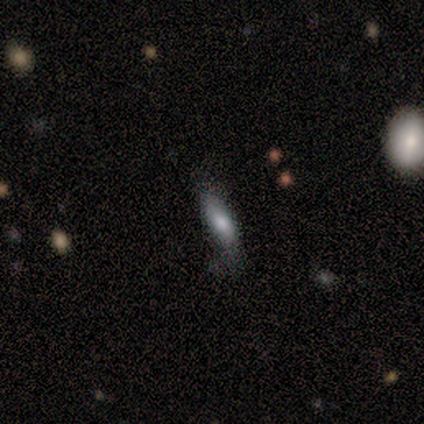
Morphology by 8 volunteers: Smooth or featured? 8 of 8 (100%) said smooth. How rounded? 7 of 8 (88%) said in between. Merging? 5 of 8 (62%) said none.